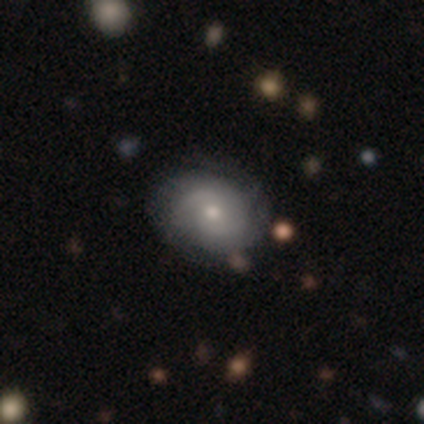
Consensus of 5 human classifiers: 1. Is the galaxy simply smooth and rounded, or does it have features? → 100% featured or disk, 0% smooth, 0% star or artifact.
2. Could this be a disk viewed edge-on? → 100% no, 0% yes.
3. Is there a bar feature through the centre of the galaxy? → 80% no, 20% weak, 0% strong.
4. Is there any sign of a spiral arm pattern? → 100% yes, 0% no.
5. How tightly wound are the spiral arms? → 60% medium, 20% tight, 20% loose.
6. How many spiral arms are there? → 60% 2, 20% 3, 20% can't tell, 0% 1, 0% 4, 0% more than 4.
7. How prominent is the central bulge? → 80% moderate, 20% large, 0% dominant, 0% small, 0% none.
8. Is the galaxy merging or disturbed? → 100% none, 0% minor disturbance, 0% major disturbance, 0% merger.